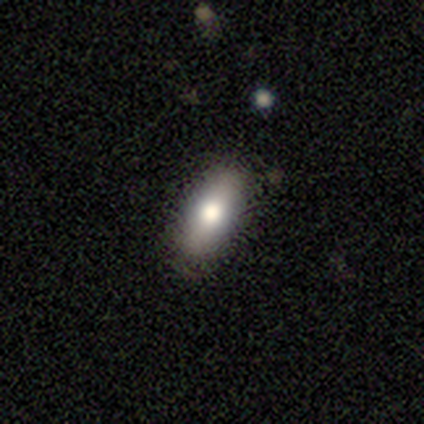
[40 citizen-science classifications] Smooth or featured?
  - smooth: 85% *
  - featured or disk: 12%
  - star or artifact: 2%
How rounded?
  - in between: 82% *
  - cigar-shaped: 15%
  - round: 3%
Merging?
  - none: 85% *
  - minor disturbance: 15%
  - major disturbance: 0%
  - merger: 0%